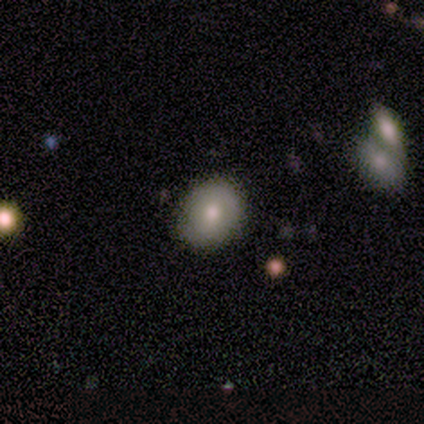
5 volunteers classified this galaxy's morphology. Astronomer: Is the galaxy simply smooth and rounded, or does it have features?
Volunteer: smooth — 100%.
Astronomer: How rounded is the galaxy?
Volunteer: round — 80%.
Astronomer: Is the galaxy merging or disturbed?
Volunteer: none — 80%.